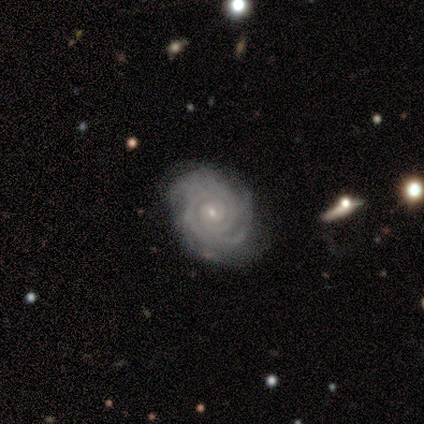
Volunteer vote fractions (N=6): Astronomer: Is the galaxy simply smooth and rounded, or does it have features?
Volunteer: featured or disk — 100%.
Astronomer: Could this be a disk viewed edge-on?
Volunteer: no — 100%.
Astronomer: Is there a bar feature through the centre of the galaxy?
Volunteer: no — 83%.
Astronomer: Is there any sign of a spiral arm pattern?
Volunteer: yes — 100%.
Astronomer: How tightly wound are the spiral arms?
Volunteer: tight — 83%.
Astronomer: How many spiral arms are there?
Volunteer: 2 — 33%, tied with 3 at 33%.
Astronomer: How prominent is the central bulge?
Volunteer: small — 83%.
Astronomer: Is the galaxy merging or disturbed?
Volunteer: none — 83%.